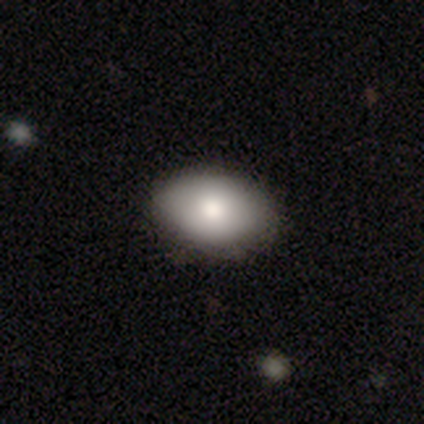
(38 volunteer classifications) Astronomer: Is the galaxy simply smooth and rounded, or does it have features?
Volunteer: smooth — 82%.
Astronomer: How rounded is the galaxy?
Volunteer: in between — 94%.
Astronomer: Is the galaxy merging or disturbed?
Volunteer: none — 59%.